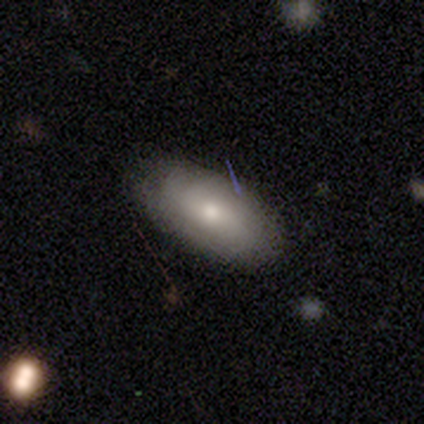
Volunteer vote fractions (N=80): A smooth galaxy with no disk features (78%) that is in between round and cigar-shaped (95%).

Vote fractions:
- Smooth or featured? smooth: 78% / featured or disk: 20% / star or artifact: 2%
- How rounded? in between: 95% / round: 3% / cigar-shaped: 2%
- Merging? none: 35% / minor disturbance: 10% / merger: 4% / major disturbance: 3%